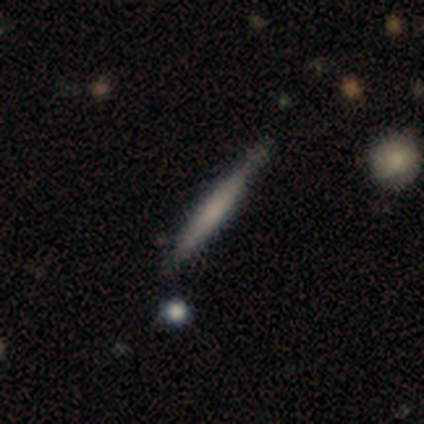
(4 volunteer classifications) Smooth or featured? 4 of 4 (100%) said smooth. How rounded? 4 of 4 (100%) said cigar-shaped. Merging? 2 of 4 (50%, tied with minor disturbance) said none.